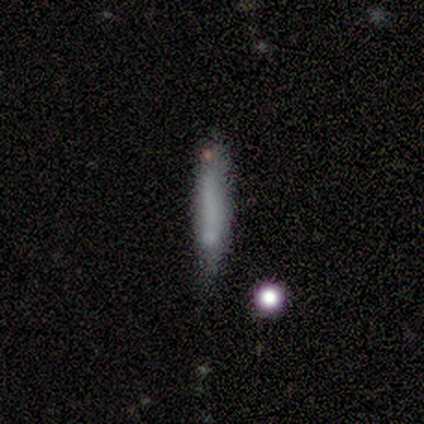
Smooth or featured? smooth (75%)
How rounded? cigar-shaped (100%)
Merging? none (75%)